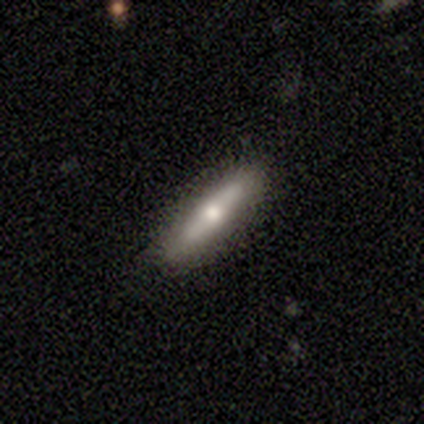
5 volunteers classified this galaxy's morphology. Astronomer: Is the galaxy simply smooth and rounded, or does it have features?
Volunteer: featured or disk — 60% (runner-up: smooth, 40%).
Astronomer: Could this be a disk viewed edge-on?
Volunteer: yes — 100%.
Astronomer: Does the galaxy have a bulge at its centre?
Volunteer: rounded — 100%.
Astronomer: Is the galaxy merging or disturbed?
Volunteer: none — 80%.